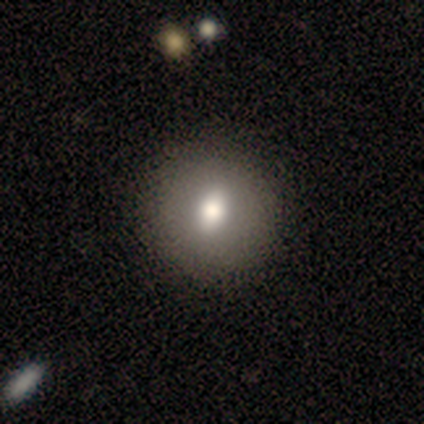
Overall: smooth (60%; featured or disk 20%). How rounded: in between (67%; round 33%). Merging: none (75%).